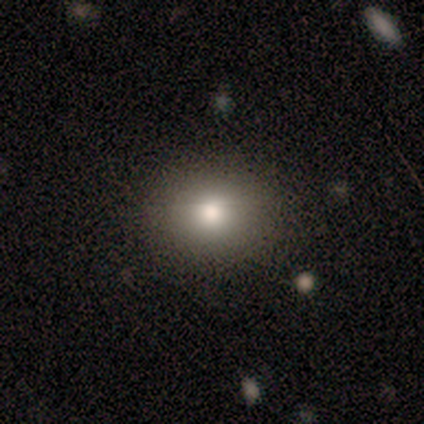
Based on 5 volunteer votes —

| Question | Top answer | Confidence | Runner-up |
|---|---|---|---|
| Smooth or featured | smooth | 80% | star or artifact (20%) |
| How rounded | in between | 75% | round (25%) |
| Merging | none | 75% | minor disturbance (25%) |